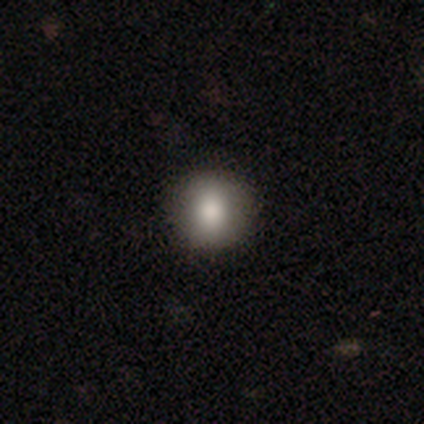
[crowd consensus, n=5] Smooth or featured?
  - smooth: 80% *
  - star or artifact: 20%
  - featured or disk: 0%
How rounded?
  - round: 100% *
  - in between: 0%
  - cigar-shaped: 0%
Merging?
  - none: 100% *
  - minor disturbance: 0%
  - major disturbance: 0%
  - merger: 0%